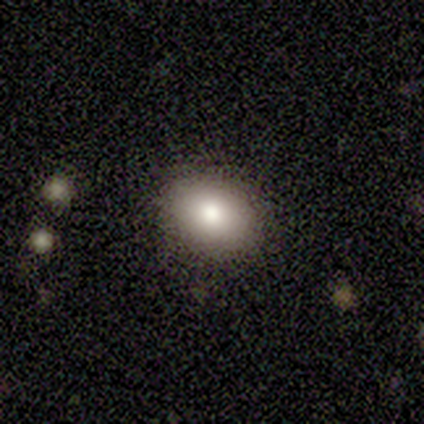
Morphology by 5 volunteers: A smooth galaxy with no disk features (80%) that is in between round and cigar-shaped (100%).

Vote fractions:
- Smooth or featured? smooth: 80% / star or artifact: 20% / featured or disk: 0%
- How rounded? in between: 100% / round: 0% / cigar-shaped: 0%
- Merging? none: 100% / minor disturbance: 0% / major disturbance: 0% / merger: 0%